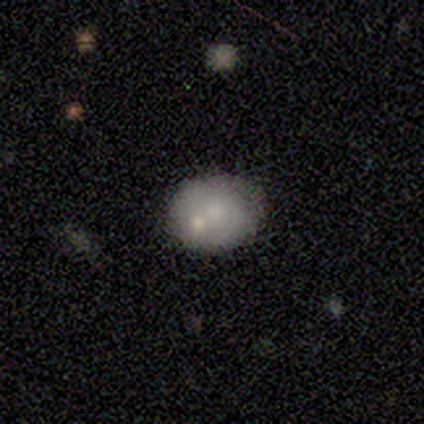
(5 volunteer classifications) A smooth galaxy with no disk features (80%) that is round (50%, tied with in between). Merging: merger (60%).